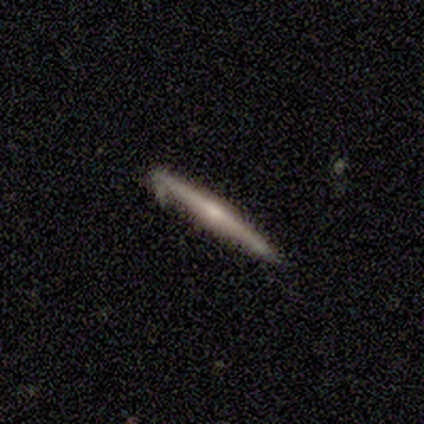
Q: Smooth or featured?
A: featured or disk (69%); runner-up: smooth (31%)
Q: Edge-on disk?
A: yes (100%)
Q: Edge-on bulge?
A: rounded (78%); runner-up: boxy (11%)
Q: Merging?
A: none (77%); runner-up: minor disturbance (15%)